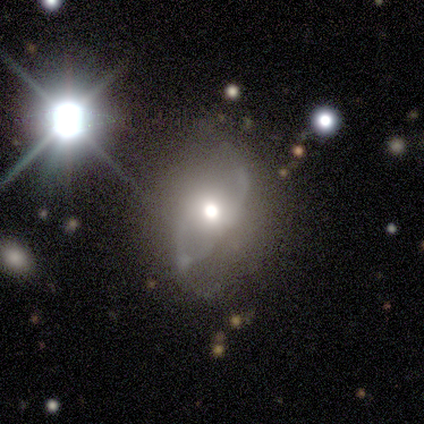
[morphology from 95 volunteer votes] Q: Smooth or featured?
A: featured or disk (73%); runner-up: smooth (23%)
Q: Edge-on disk?
A: no (94%); runner-up: yes (6%)
Q: Bar?
A: no (88%); runner-up: weak (11%)
Q: Spiral arms?
A: no (55%); runner-up: yes (45%)
Q: Bulge size?
A: moderate (58%); runner-up: large (31%)
Q: Merging?
A: none (44%); runner-up: minor disturbance (29%)